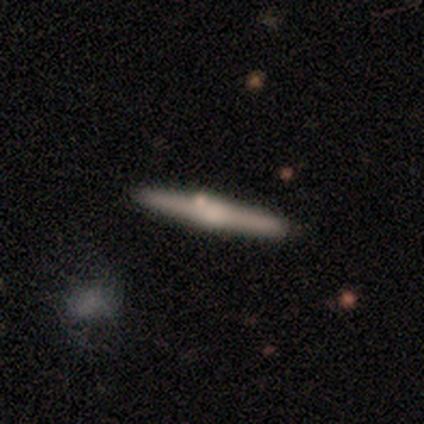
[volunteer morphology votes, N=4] A smooth galaxy with no disk features (75%) that is cigar-shaped (100%). Merging: none (75%).